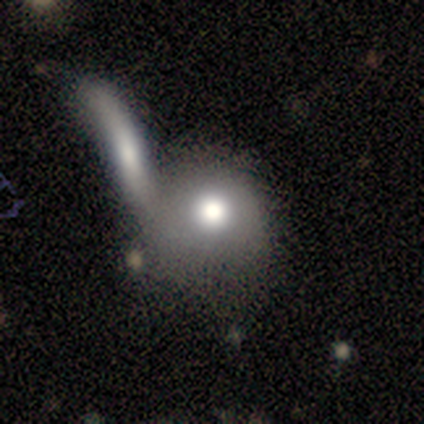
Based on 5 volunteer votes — smooth-or-featured: smooth: 60% | featured or disk: 40% | star or artifact: 0%
  how-rounded: round: 100% | in between: 0% | cigar-shaped: 0%
  merging: merger: 60% | none: 40% | minor disturbance: 0% | major disturbance: 0%